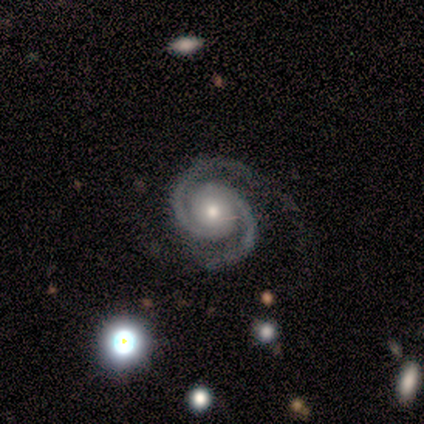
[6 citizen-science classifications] featured or disk 100%, smooth 0%, star or artifact 0%. Down the decision tree: edge-on disk — no (100%); bar — no (100%); spiral arms — yes (100%); spiral arm count — 2 (100%); spiral winding — medium (50%); bulge size — small (67%); merging — none (100%).